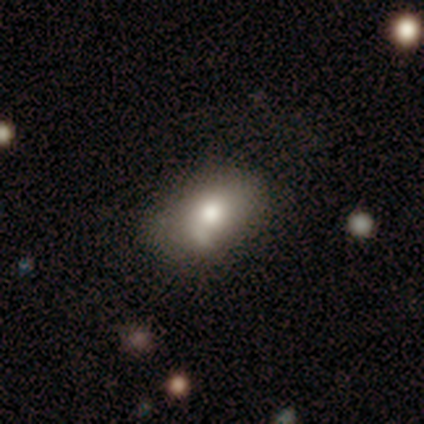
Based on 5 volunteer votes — Smooth or featured: smooth — 60% (featured or disk — 40%)
How rounded: in between — 100%
Merging: minor disturbance — 60% (none — 20%)